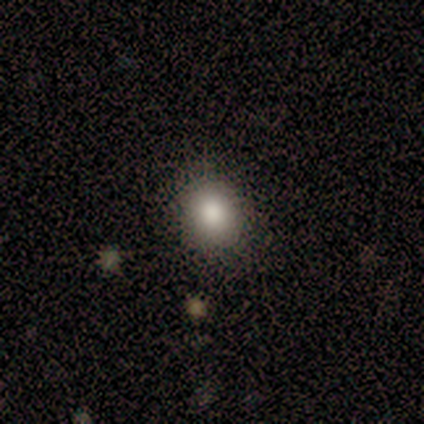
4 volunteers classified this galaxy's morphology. type=smooth (75%); roundness=round (100%); merging=none (67%).